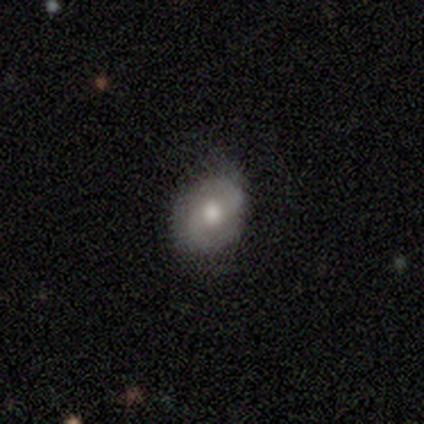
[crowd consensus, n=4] featured or disk 50%, smooth 25%, star or artifact 25%. Down the decision tree: edge-on disk — no (100%); bar — weak (100%); spiral arms — yes (100%); spiral arm count — 2 (100%); spiral winding — tight (50%, tied with loose); bulge size — large (50%, tied with moderate); merging — minor disturbance (67%).